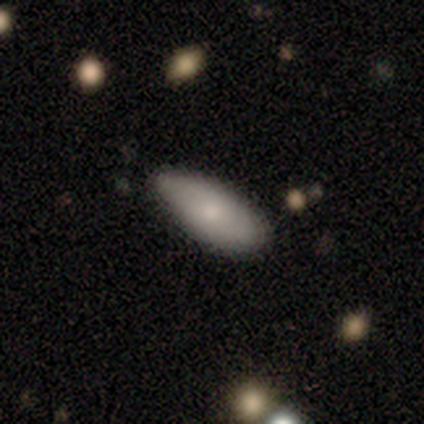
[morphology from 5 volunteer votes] Q: Smooth or featured?
A: smooth (100%)
Q: How rounded?
A: in between (80%); runner-up: cigar-shaped (20%)
Q: Merging?
A: minor disturbance (60%); runner-up: none (40%)